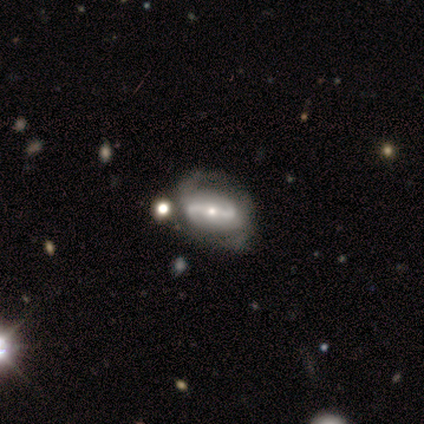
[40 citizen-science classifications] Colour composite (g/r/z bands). It shows a featured or disk galaxy (98%) with a strong bar (68%), 2 (100%) loose (50%) spiral arms (84%) and a small central bulge (55%). Merging: none (42%).